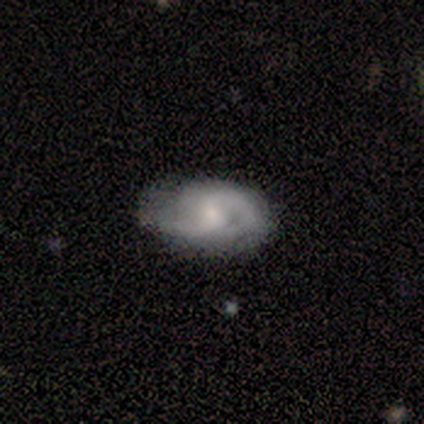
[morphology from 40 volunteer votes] smooth_or_featured: featured or disk (p=0.78) [alt: smooth p=0.23]
disk_edge_on: no (p=1.00)
bar: no (p=0.45) [alt: weak p=0.42]
has_spiral_arms: yes (p=1.00)
spiral_winding: medium (p=0.39) [alt: tight p=0.32]
spiral_arm_count: 2 (p=0.87) [alt: can't tell p=0.10]
bulge_size: small (p=0.58) [alt: moderate p=0.23]
merging: none (p=0.40) [alt: minor disturbance p=0.17]